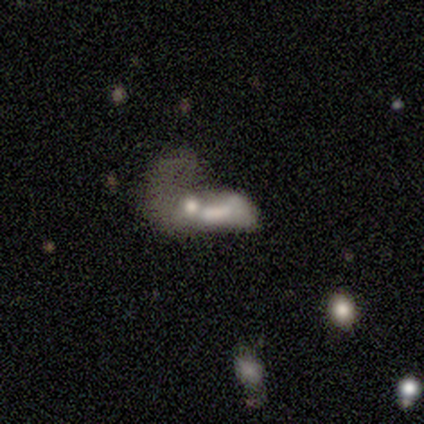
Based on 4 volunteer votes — smooth_or_featured: featured or disk (p=0.50) [tied with: star or artifact p=0.50]
disk_edge_on: no (p=1.00)
bar: weak (p=0.50) [tied with: no p=0.50]
has_spiral_arms: yes (p=0.50) [tied with: no p=0.50]
spiral_winding: loose (p=1.00)
spiral_arm_count: 1 (p=1.00)
bulge_size: small (p=0.50) [tied with: none p=0.50]
merging: merger (p=1.00)